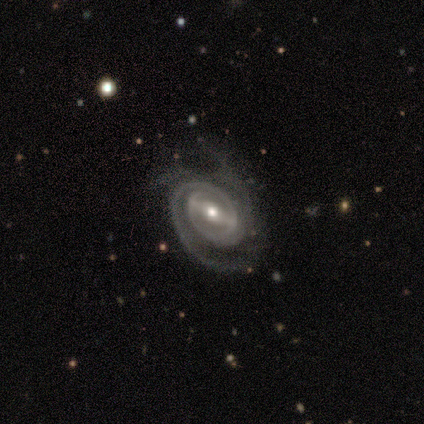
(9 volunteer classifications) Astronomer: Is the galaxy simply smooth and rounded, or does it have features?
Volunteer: featured or disk — 100%.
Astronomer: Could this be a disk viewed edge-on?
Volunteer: no — 100%.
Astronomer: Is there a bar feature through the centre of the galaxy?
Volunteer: strong — 44%, tied with no at 44%.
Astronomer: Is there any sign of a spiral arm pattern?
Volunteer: yes — 100%.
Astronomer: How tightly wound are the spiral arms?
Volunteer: tight — 67%.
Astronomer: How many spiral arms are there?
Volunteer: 2 — 67%.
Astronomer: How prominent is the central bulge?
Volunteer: moderate — 78%.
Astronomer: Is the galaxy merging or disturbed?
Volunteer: none — 44%, tied with minor disturbance at 44%.